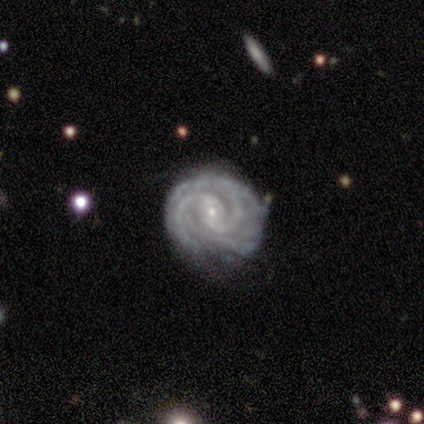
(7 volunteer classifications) Volunteers were most divided on "merging": minor disturbance: 57%, none: 43%, major disturbance: 0%, merger: 0%. More confident: smooth or featured — featured or disk (100%); edge-on disk — no (100%); spiral arms — yes (100%); spiral winding — tight (86%); bulge size — small (86%); bar — weak (57%); spiral arm count — 2 (57%).